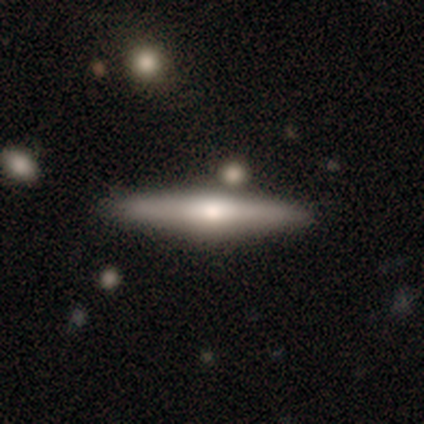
Smooth or featured? 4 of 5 (80%) said featured or disk. Edge-on disk? 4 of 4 (100%) said yes. Edge-on bulge? 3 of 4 (75%) said rounded. Merging? 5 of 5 (100%) said none.